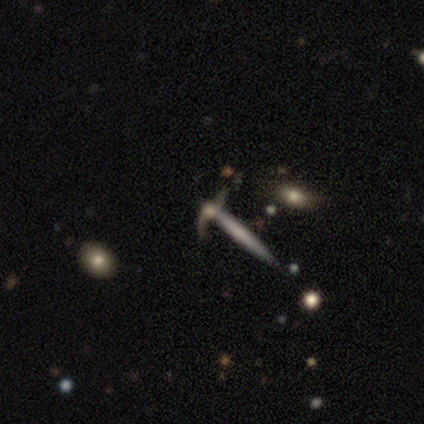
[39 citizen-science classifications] Smooth or featured?
  - featured or disk: 59% *
  - smooth: 31%
  - star or artifact: 10%
Edge-on disk?
  - yes: 65% *
  - no: 35%
Edge-on bulge?
  - none: 67% *
  - rounded: 27%
  - boxy: 7%
Merging?
  - none: 66% *
  - merger: 26%
  - minor disturbance: 6%
  - major disturbance: 3%